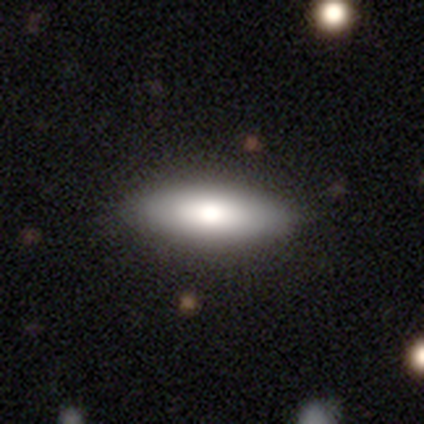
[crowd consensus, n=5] A smooth galaxy with no disk features (60%) that is in between round and cigar-shaped (67%). Merging: none (100%).